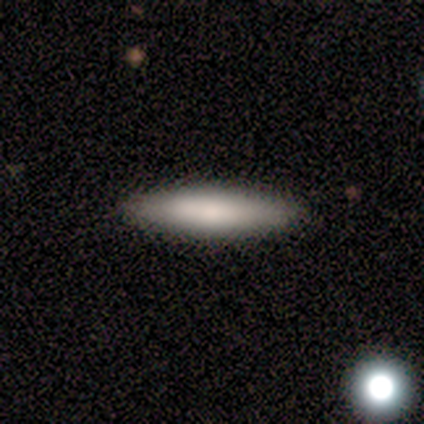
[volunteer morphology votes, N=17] Smooth or featured?
  - smooth: 65% *
  - featured or disk: 24%
  - star or artifact: 12%
How rounded?
  - cigar-shaped: 91% *
  - in between: 9%
  - round: 0%
Merging?
  - none: 100% *
  - minor disturbance: 0%
  - major disturbance: 0%
  - merger: 0%